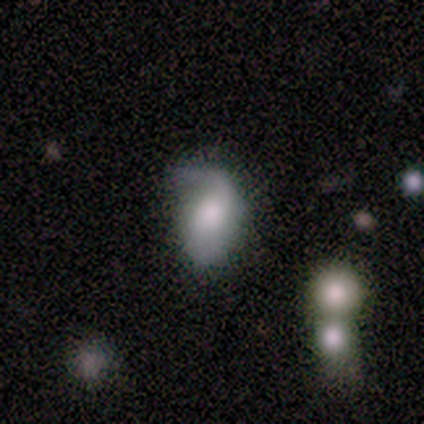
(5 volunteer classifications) Smooth or featured? smooth (60%)
How rounded? in between (100%)
Merging? minor disturbance (80%)